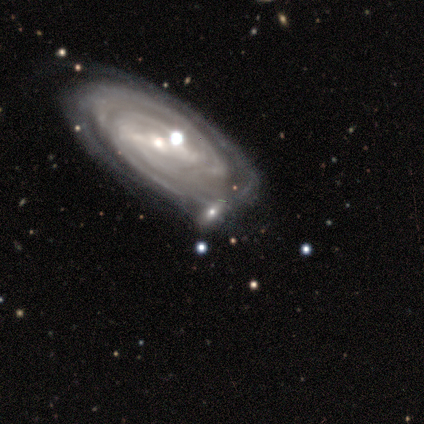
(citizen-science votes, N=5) Smooth or featured? 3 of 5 (60%) said featured or disk. Edge-on disk? 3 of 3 (100%) said no. Bar? 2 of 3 (67%) said strong. Spiral arms? 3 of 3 (100%) said yes. Spiral winding? 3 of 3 (100%) said tight. Spiral arm count? 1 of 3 (33%, tied with 3 and 4) said 2. Bulge size? 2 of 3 (67%) said small. Merging? 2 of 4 (50%) said none.